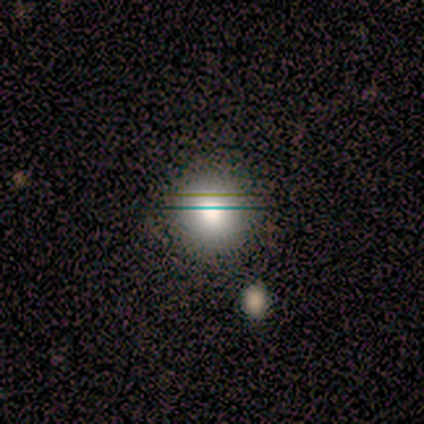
A smooth galaxy with no disk features (100%) that is round (100%).

Vote fractions:
- Smooth or featured? smooth: 100% / featured or disk: 0% / star or artifact: 0%
- How rounded? round: 100% / in between: 0% / cigar-shaped: 0%
- Merging? none: 80% / minor disturbance: 20% / major disturbance: 0% / merger: 0%